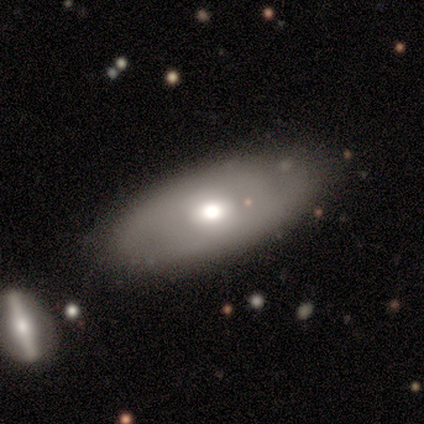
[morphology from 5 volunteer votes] A smooth galaxy with no disk features (60%) that is in between round and cigar-shaped (67%).

Vote fractions:
- Smooth or featured? smooth: 60% / featured or disk: 40% / star or artifact: 0%
- How rounded? in between: 67% / cigar-shaped: 33% / round: 0%
- Merging? none: 60% / minor disturbance: 40% / major disturbance: 0% / merger: 0%